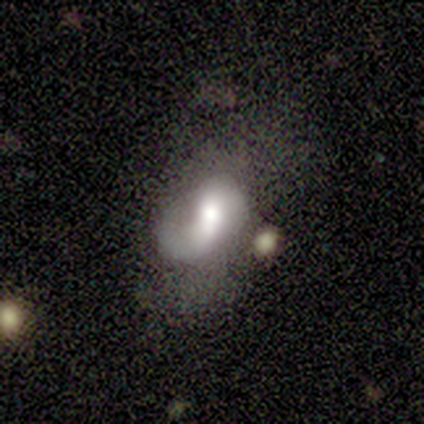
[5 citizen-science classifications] smooth-or-featured: featured or disk: 60% | smooth: 40% | star or artifact: 0%
  disk-edge-on: no: 100% | yes: 0%
    bar: weak: 100% | strong: 0% | no: 0%
    has-spiral-arms: yes: 67% | no: 33%
      spiral-winding: loose: 100% | tight: 0% | medium: 0%
      spiral-arm-count: 1: 50% (tied) | 2: 50% (tied) | 3: 0% | 4: 0% | more than 4: 0% | can't tell: 0%
    bulge-size: moderate: 67% | large: 33% | dominant: 0% | small: 0% | none: 0%
  merging: none: 60% | major disturbance: 40% | minor disturbance: 0% | merger: 0%